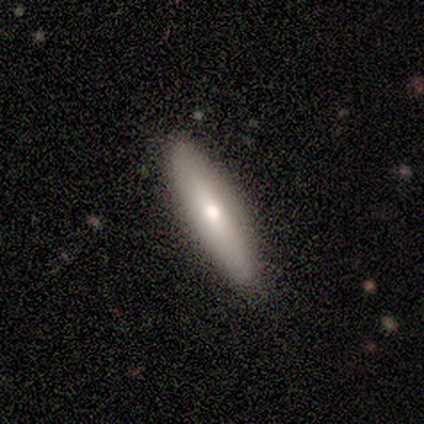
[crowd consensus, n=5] Q: Smooth or featured?
A: smooth (80%); runner-up: featured or disk (20%)
Q: How rounded?
A: cigar-shaped (75%); runner-up: in between (25%)
Q: Merging?
A: none (80%); runner-up: minor disturbance (20%)